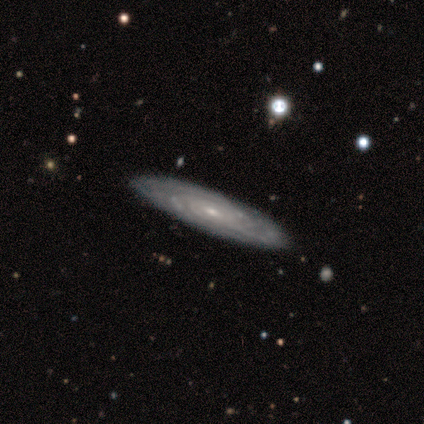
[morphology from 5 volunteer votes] Smooth or featured? featured or disk (80%)
Edge-on disk? no (75%)
Bar? no (67%)
Spiral arms? yes (100%)
Spiral winding? tight (67%)
Spiral arm count? can't tell (67%)
Bulge size? moderate (67%)
Merging? none (100%)